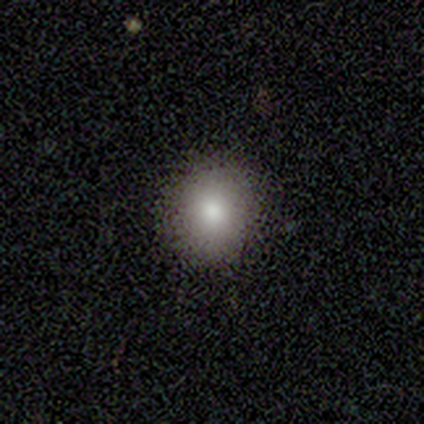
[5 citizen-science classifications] Q: Smooth or featured?
A: smooth (100%)
Q: How rounded?
A: round (80%); runner-up: in between (20%)
Q: Merging?
A: none (80%); runner-up: minor disturbance (20%)